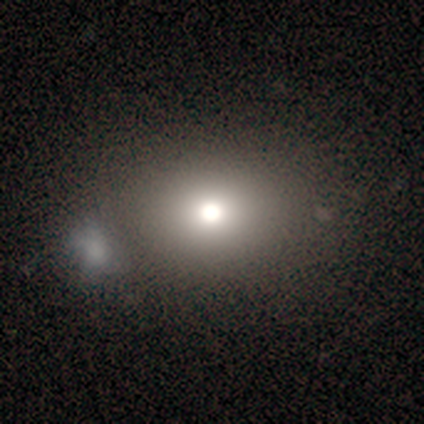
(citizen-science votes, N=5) This appears to be a smooth galaxy with no disk features (60%) that is round (67%). Merging: none (75%).